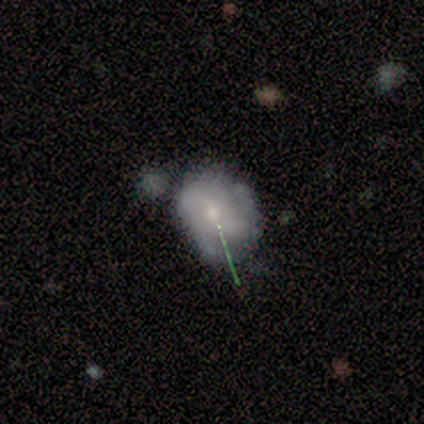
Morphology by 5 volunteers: smooth_or_featured: featured or disk (p=0.60) [alt: smooth p=0.40]
disk_edge_on: no (p=1.00)
bar: weak (p=0.67) [alt: no p=0.33]
has_spiral_arms: yes (p=0.67) [alt: no p=0.33]
spiral_winding: medium (p=0.50) [tied with: loose p=0.50]
spiral_arm_count: 2 (p=1.00)
bulge_size: large (p=0.33) [tied with: moderate p=0.33, small p=0.33]
merging: minor disturbance (p=0.40) [alt: none p=0.20]